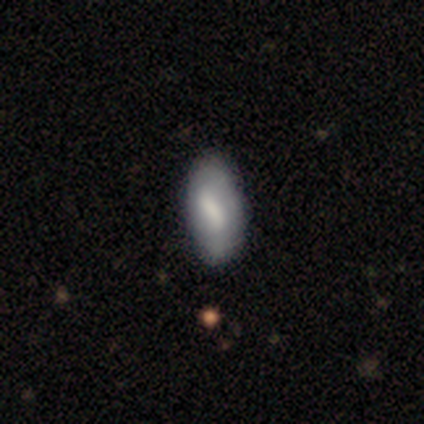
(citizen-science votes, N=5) Overall: smooth (60%; featured or disk 40%). How rounded: in between (100%). Merging: none (80%).